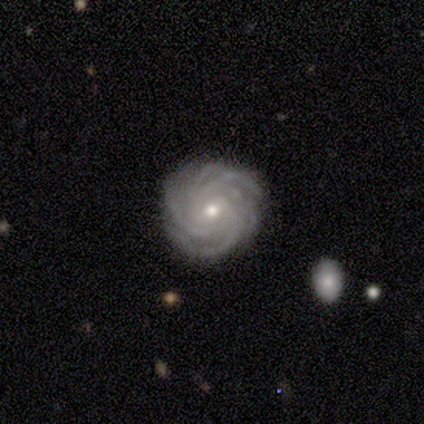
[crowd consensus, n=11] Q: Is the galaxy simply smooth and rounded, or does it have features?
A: featured or disk — 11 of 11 (100%).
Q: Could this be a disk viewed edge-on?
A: no — 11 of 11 (100%).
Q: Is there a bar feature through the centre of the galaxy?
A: no — 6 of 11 (55%).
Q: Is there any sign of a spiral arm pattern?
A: yes — 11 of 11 (100%).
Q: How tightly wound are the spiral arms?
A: tight — 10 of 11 (91%).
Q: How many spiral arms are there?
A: more than 4 — 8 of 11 (73%).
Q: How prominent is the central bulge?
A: small — 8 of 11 (73%).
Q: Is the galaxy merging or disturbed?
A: none — 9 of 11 (82%).